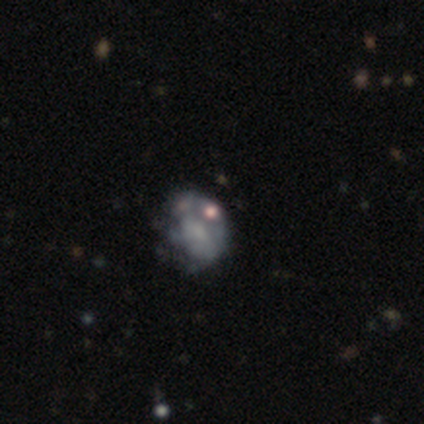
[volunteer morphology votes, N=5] Smooth or featured? 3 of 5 (60%) said featured or disk. Edge-on disk? 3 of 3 (100%) said no. Bar? 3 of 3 (100%) said no. Spiral arms? 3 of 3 (100%) said no. Bulge size? 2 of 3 (67%) said none. Merging? 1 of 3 (33%, tied with minor disturbance and major disturbance) said none.